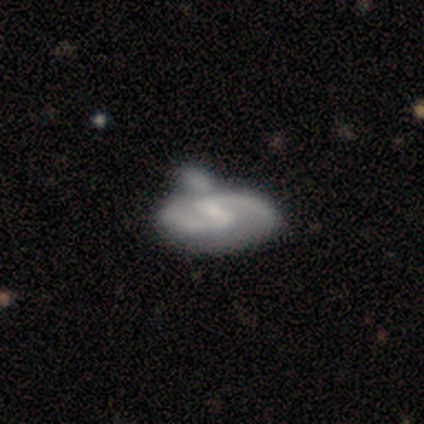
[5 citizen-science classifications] featured or disk 60%, smooth 40%, star or artifact 0%. Down the decision tree: edge-on disk — no (100%); bar — strong (33%, tied with weak and no); spiral arms — yes (100%); spiral arm count — 2 (100%); spiral winding — tight (33%, tied with medium and loose); bulge size — small (67%); merging — merger (60%).